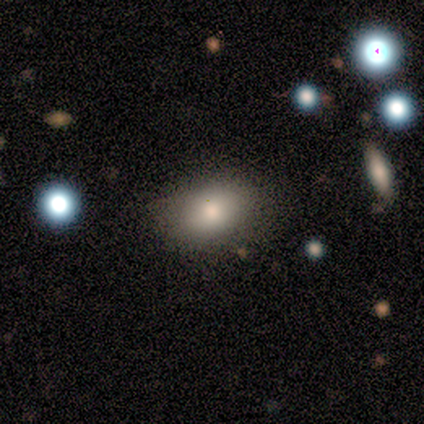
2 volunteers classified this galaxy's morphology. Smooth or featured? smooth (100%)
How rounded? in between (100%)
Merging? none (100%)